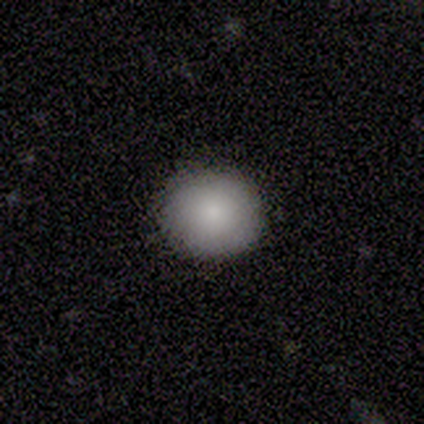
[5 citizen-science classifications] smooth_or_featured: smooth (p=1.00)
how_rounded: round (p=0.80) [alt: in between p=0.20]
merging: none (p=1.00)